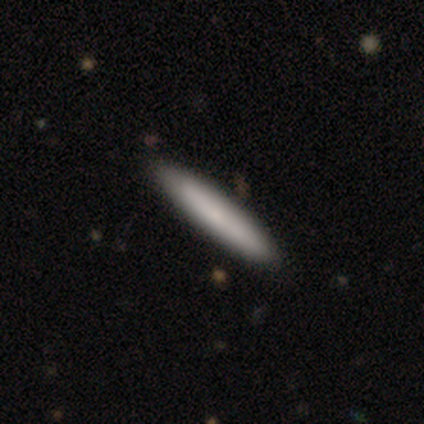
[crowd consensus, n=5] Overall: smooth (80%). How rounded: cigar-shaped (75%). Merging: none (100%).